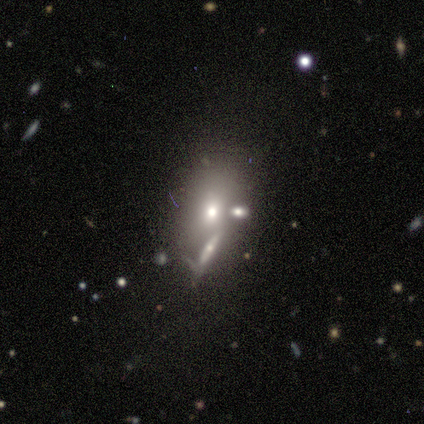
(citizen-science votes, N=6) A smooth galaxy with no disk features (83%) that is in between round and cigar-shaped (60%).

Vote fractions:
- Smooth or featured? smooth: 83% / featured or disk: 17% / star or artifact: 0%
- How rounded? in between: 60% / round: 40% / cigar-shaped: 0%
- Merging? none: 50% / minor disturbance: 33% / merger: 17% / major disturbance: 0%